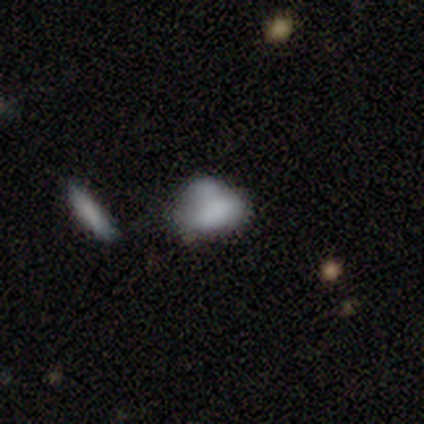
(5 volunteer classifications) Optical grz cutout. It shows a featured or disk galaxy (60%) with no bar (100%), no spiral arms (100%) and a small central bulge (50%, tied with none). Merging: none (50%, tied with major disturbance).